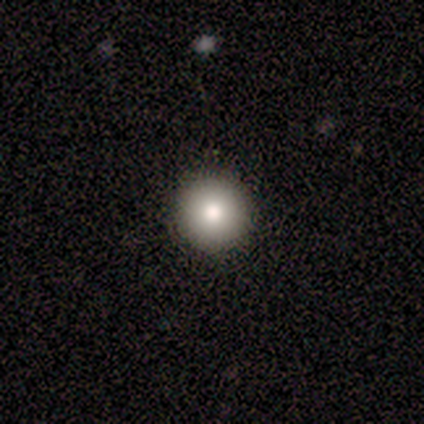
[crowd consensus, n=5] Volunteers were most divided on "how rounded": round: 75%, cigar-shaped: 25%, in between: 0%. More confident: merging — none (100%); smooth or featured — smooth (80%).